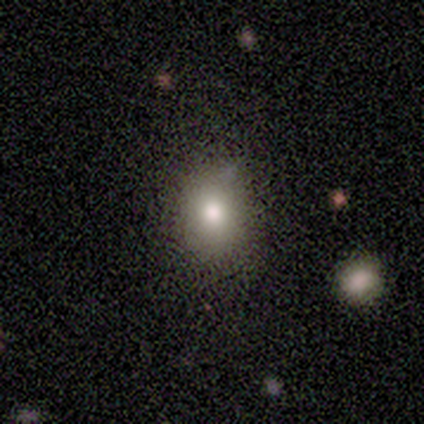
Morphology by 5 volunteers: Smooth or featured? 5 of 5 (100%) said smooth. How rounded? 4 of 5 (80%) said round. Merging? 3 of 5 (60%) said minor disturbance.